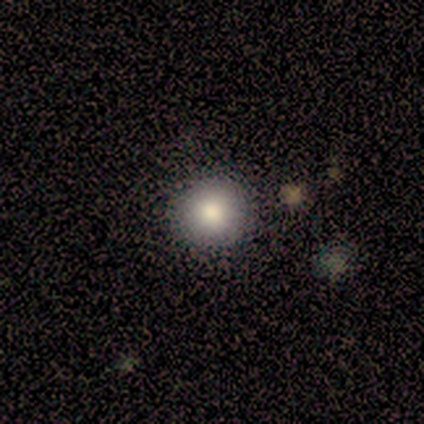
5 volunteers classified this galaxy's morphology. Q: Smooth or featured?
A: smooth (80%); runner-up: featured or disk (20%)
Q: How rounded?
A: round (100%)
Q: Merging?
A: none (100%)